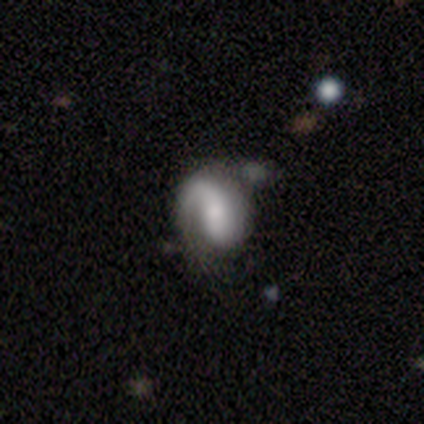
This is clearly a featured or disk galaxy (88%). It is clearly not viewed edge-on (100%). Bar: possibly no (57%). Spiral arm pattern: clearly yes (86%). Spiral arm count: possibly 2 (50%). Spiral winding: possibly medium (50%). Central bulge: marginally small (43%). Merging: likely none (62%).